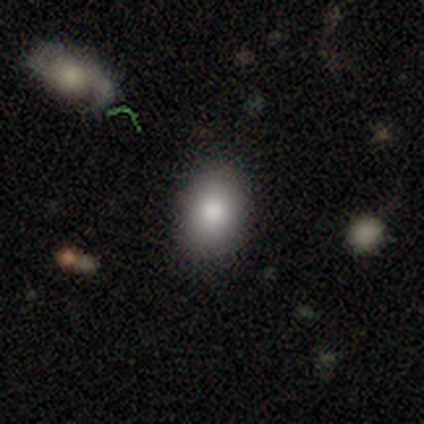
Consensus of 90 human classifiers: Volunteers were most divided on "how rounded": in between: 71%, round: 26%, cigar-shaped: 3%. More confident: merging — none (81%); smooth or featured — smooth (81%).